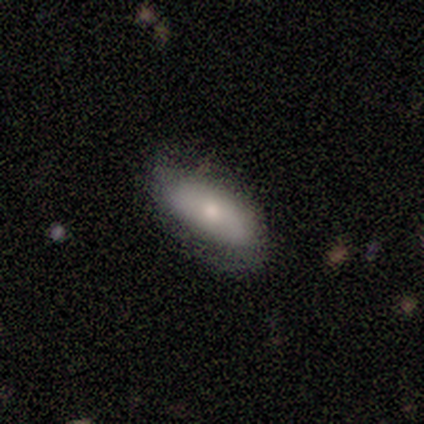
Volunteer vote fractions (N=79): Smooth or featured? smooth (63%)
How rounded? in between (90%)
Merging? none (38%)